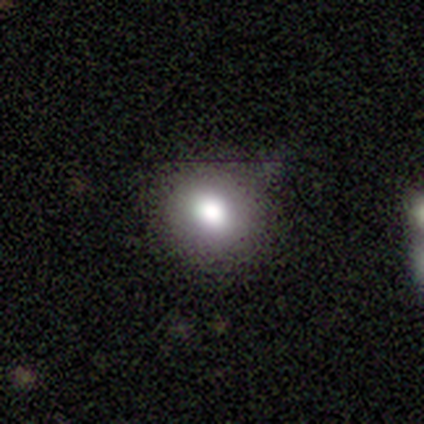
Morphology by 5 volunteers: Smooth or featured? 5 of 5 (100%) said smooth. How rounded? 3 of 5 (60%) said round. Merging? 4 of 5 (80%) said none.